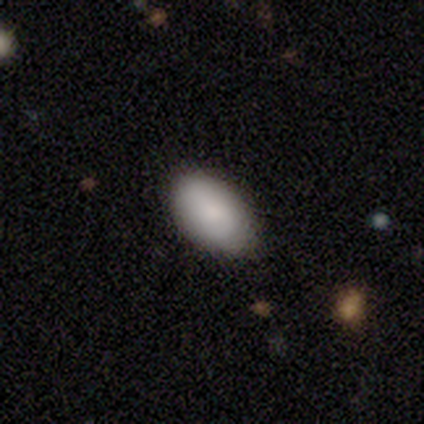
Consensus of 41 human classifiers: Morphology: type=smooth (80%); roundness=in between (91%); merging=none (87%).